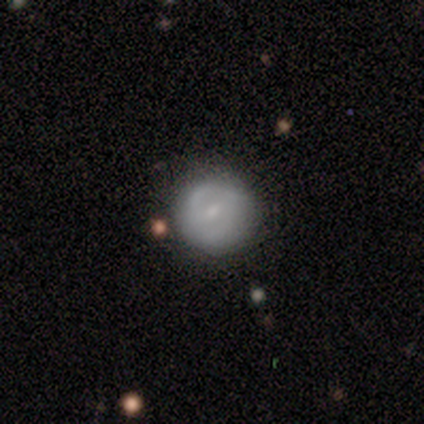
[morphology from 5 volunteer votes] Smooth or featured?
  - smooth: 60% *
  - featured or disk: 40%
  - star or artifact: 0%
How rounded?
  - round: 100% *
  - in between: 0%
  - cigar-shaped: 0%
Merging?
  - none: 80% *
  - minor disturbance: 20%
  - major disturbance: 0%
  - merger: 0%